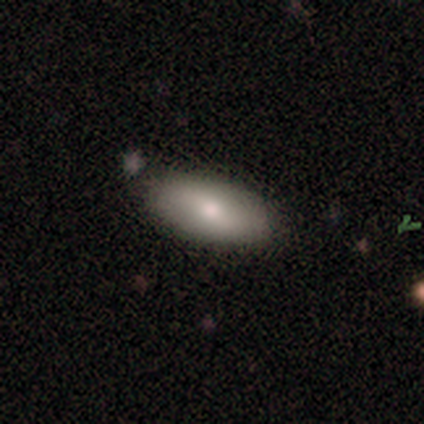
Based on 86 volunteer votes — Morphology: type=smooth (78%); roundness=in between (94%); merging=none (88%).